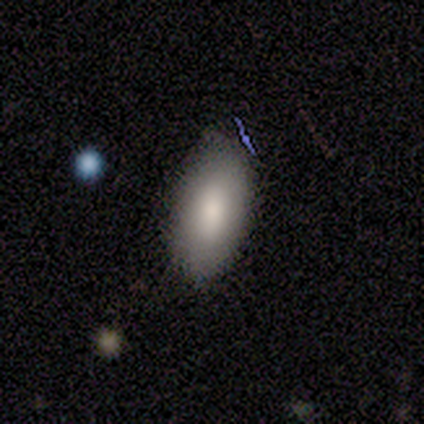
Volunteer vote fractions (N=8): Smooth or featured? smooth (88%)
How rounded? in between (100%)
Merging? none (86%)